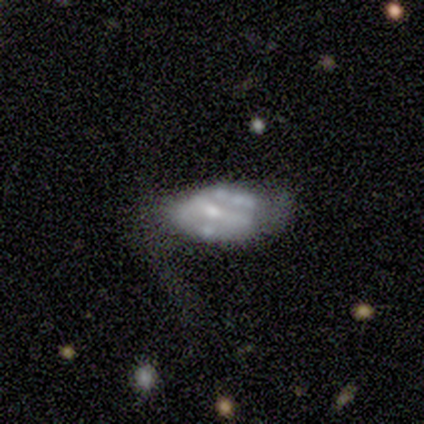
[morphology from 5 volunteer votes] featured or disk 60%, smooth 40%, star or artifact 0%. Down the decision tree: edge-on disk — no (100%); bar — no (100%); spiral arms — no (67%); bulge size — moderate (67%); merging — none (60%).